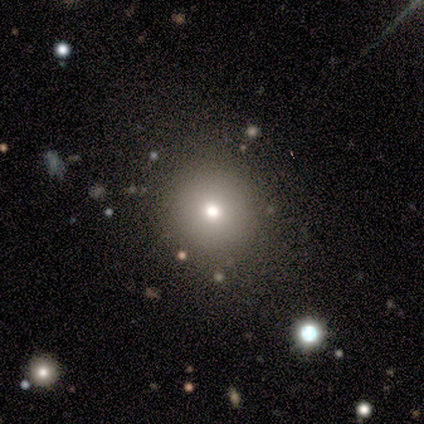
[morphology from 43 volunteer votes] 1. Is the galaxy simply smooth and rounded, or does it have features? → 77% smooth, 12% featured or disk, 12% star or artifact.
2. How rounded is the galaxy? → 97% round, 3% in between, 0% cigar-shaped.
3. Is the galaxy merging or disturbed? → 92% none, 5% minor disturbance, 3% major disturbance, 0% merger.